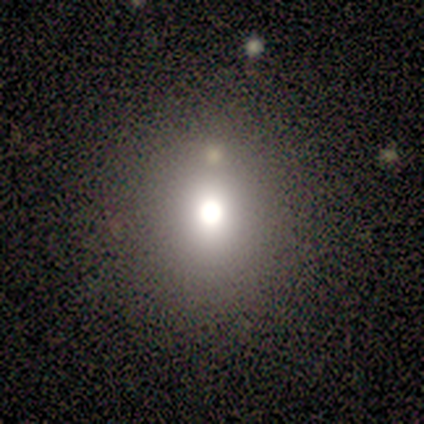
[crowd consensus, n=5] smooth-or-featured: smooth: 60% | featured or disk: 40% | star or artifact: 0%
  how-rounded: round: 100% | in between: 0% | cigar-shaped: 0%
  merging: none: 60% | minor disturbance: 20% | major disturbance: 20% | merger: 0%